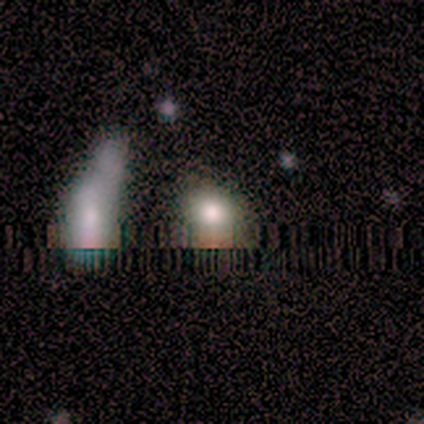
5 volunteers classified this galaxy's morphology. Q: Smooth or featured?
A: smooth (80%); runner-up: star or artifact (20%)
Q: How rounded?
A: round (50%); tied with: in between (50%)
Q: Merging?
A: none (100%)